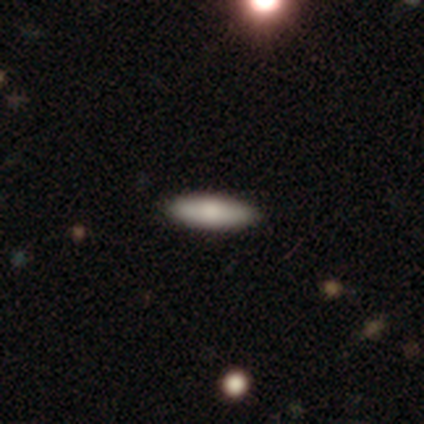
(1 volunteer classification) smooth_or_featured: featured or disk (p=1.00)
disk_edge_on: yes (p=1.00)
edge_on_bulge: none (p=1.00)
merging: major disturbance (p=1.00)